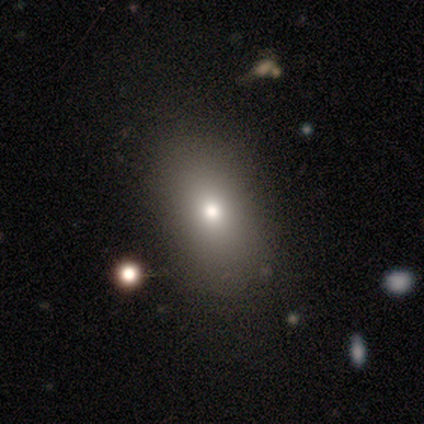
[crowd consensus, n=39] Volunteers were most divided on "merging": none: 71%, minor disturbance: 9%, major disturbance: 3%, merger: 3%. More confident: smooth or featured — smooth (82%); how rounded — in between (78%).